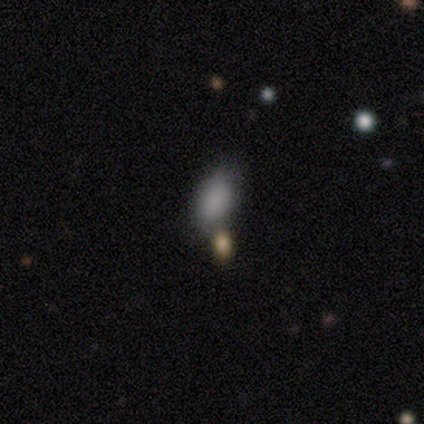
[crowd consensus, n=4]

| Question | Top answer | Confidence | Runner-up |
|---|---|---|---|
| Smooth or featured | smooth | 100% | — |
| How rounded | in between | 100% | — |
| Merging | merger | 50% | none (25%) |